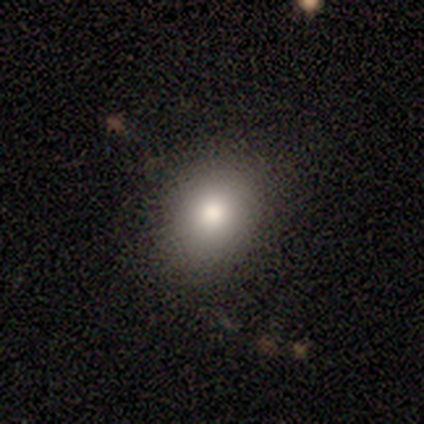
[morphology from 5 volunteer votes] Smooth or featured? 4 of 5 (80%) said smooth. How rounded? 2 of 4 (50%, tied with in between) said round. Merging? 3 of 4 (75%) said none.